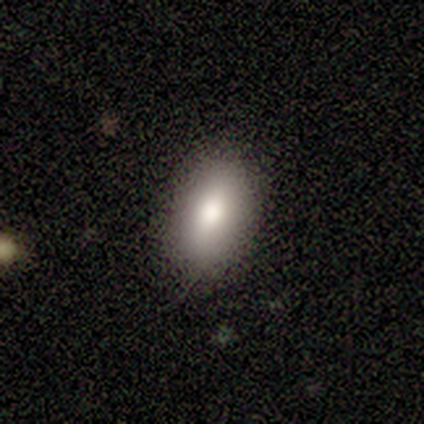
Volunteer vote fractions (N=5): Q: Smooth or featured?
A: smooth (100%)
Q: How rounded?
A: in between (100%)
Q: Merging?
A: none (100%)